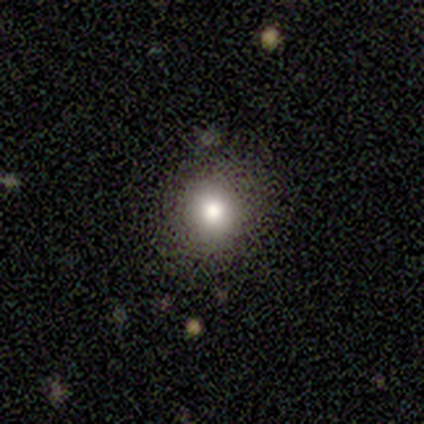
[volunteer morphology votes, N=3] A smooth galaxy with no disk features (67%) that is round (100%).

Vote fractions:
- Smooth or featured? smooth: 67% / featured or disk: 33% / star or artifact: 0%
- How rounded? round: 100% / in between: 0% / cigar-shaped: 0%
- Merging? none: 67% / minor disturbance: 33% / major disturbance: 0% / merger: 0%